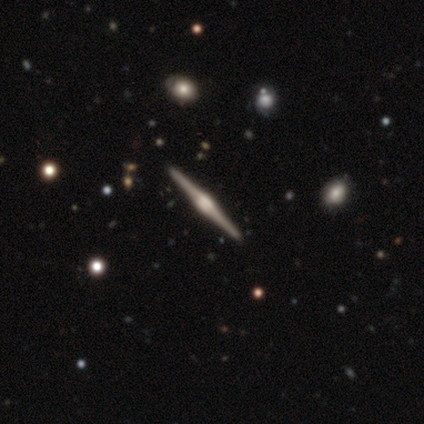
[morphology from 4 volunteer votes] Overall: featured or disk (100%). Edge-on disk: yes (100%). Edge-on bulge: rounded (75%). Merging: none (100%).